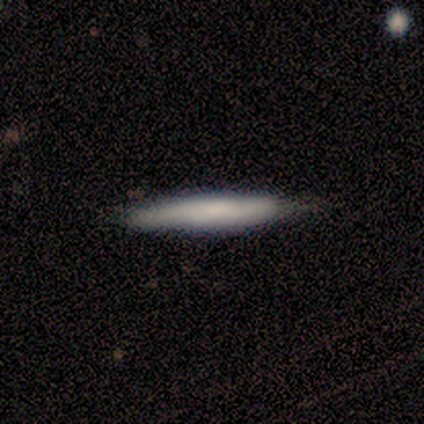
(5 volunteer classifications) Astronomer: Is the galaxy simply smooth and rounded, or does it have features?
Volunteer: smooth — 80%.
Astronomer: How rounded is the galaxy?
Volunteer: cigar-shaped — 100%.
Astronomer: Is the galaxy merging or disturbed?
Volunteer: none — 100%.